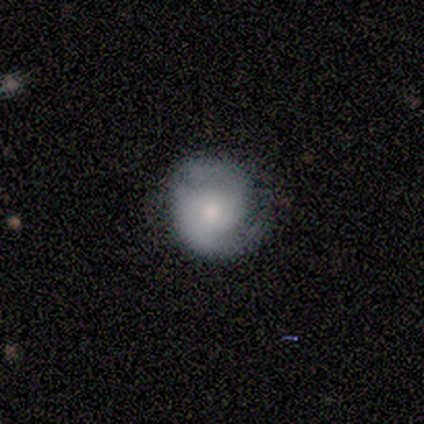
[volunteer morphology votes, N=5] smooth_or_featured: featured or disk (p=0.80) [alt: smooth p=0.20]
disk_edge_on: no (p=1.00)
bar: weak (p=0.50) [tied with: no p=0.50]
has_spiral_arms: yes (p=0.75) [alt: no p=0.25]
spiral_winding: tight (p=0.67) [alt: loose p=0.33]
spiral_arm_count: 2 (p=1.00)
bulge_size: small (p=0.75) [alt: moderate p=0.25]
merging: none (p=0.80) [alt: minor disturbance p=0.20]